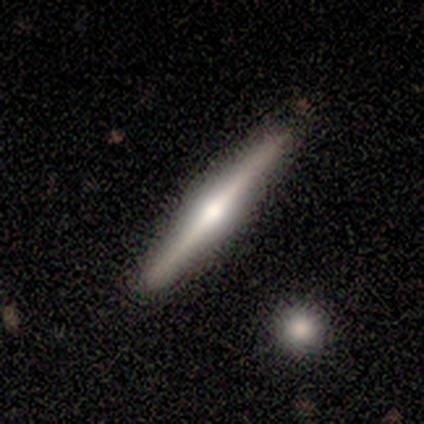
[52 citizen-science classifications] Morphology: type=featured or disk (73%); edge-on=yes (97%); edge-on bulge=rounded (86%); merging=none (92%).